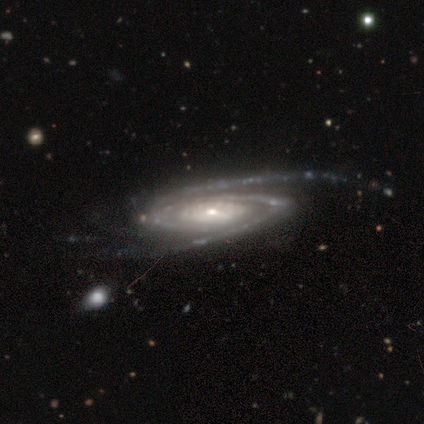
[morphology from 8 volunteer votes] A featured or disk galaxy (88%) with no bar (100%), 2 (100%) tight (71%) spiral arms (100%) and a small central bulge (71%). Merging: none (100%).